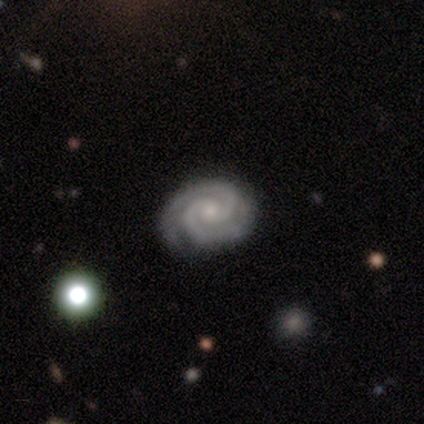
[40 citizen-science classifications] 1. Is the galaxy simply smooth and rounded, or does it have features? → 98% featured or disk, 2% star or artifact, 0% smooth.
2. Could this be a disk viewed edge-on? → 100% no, 0% yes.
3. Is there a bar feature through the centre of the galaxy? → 74% no, 21% weak, 5% strong.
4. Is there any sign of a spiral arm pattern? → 100% yes, 0% no.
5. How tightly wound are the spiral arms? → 77% tight, 18% medium, 5% loose.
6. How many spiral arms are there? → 97% 2, 3% 3, 0% 1, 0% 4, 0% more than 4, 0% can't tell.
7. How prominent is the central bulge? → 62% small, 28% moderate, 5% large, 5% none, 0% dominant.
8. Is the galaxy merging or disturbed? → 69% none, 5% minor disturbance, 5% major disturbance, 0% merger.